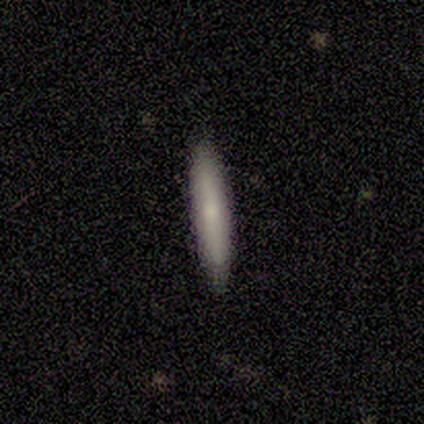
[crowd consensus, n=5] Smooth or featured? 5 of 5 (100%) said smooth. How rounded? 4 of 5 (80%) said cigar-shaped. Merging? 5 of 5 (100%) said none.